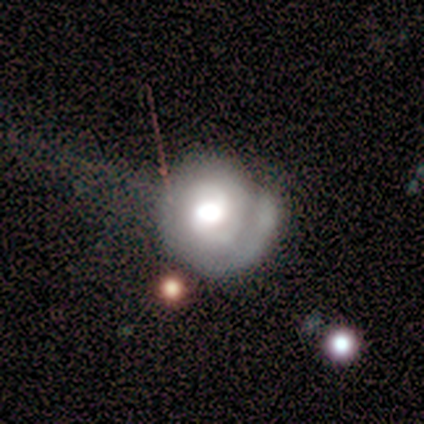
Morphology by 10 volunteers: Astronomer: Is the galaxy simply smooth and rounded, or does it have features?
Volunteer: featured or disk — 80%.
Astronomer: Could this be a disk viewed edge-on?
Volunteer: no — 100%.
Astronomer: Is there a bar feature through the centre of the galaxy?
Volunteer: no — 62%.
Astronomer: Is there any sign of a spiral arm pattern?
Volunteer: yes — 100%.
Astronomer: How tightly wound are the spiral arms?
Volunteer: tight — 75%.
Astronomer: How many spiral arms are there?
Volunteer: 1 — 62%.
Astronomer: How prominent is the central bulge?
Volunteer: large — 88%.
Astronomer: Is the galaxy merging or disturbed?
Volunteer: minor disturbance — 40% (runner-up: none, 30%).